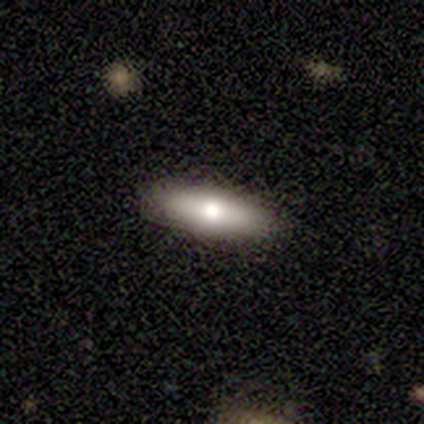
Volunteers were most divided on "smooth or featured": smooth: 60%, featured or disk: 20%, star or artifact: 20%. More confident: how rounded — cigar-shaped (100%); merging — none (100%).